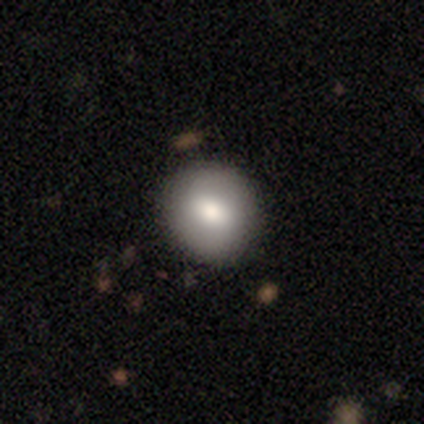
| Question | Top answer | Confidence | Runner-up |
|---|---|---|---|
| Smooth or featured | smooth | 80% | featured or disk (15%) |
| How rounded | round | 84% | in between (16%) |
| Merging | none | 87% | minor disturbance (11%) |